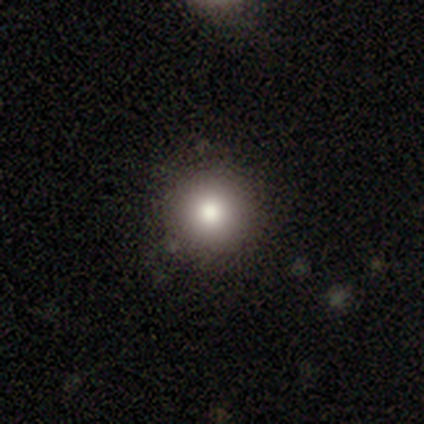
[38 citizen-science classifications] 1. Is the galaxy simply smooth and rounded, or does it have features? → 74% smooth, 18% star or artifact, 8% featured or disk.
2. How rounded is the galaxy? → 93% round, 7% in between, 0% cigar-shaped.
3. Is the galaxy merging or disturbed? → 97% none, 3% minor disturbance, 0% major disturbance, 0% merger.